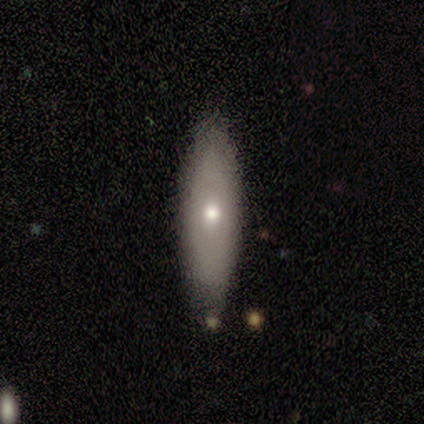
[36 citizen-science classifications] smooth 53%, featured or disk 39%, star or artifact 8%. Down the decision tree: how rounded — cigar-shaped (53%); merging — none (70%).